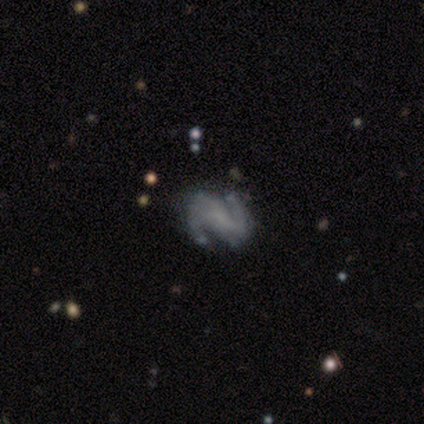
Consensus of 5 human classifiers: Smooth or featured: featured or disk — 100%
Edge-on disk: no — 100%
Bar: strong — 60% (weak — 20%)
Spiral arms: yes — 80% (no — 20%)
Spiral winding: medium — 50% (tied with loose — 50%)
Spiral arm count: 2 — 100%
Bulge size: none — 80% (moderate — 20%)
Merging: none — 100%